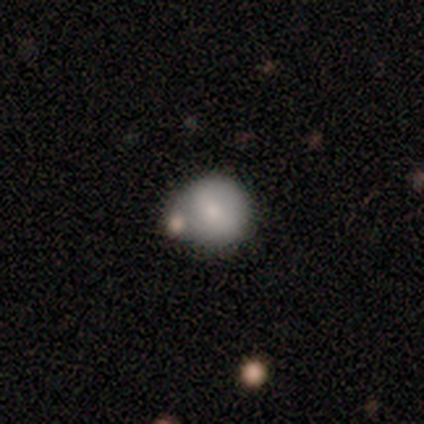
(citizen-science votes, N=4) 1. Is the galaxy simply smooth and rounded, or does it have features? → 50% smooth, 25% featured or disk, 25% star or artifact.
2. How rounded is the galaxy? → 100% round, 0% in between, 0% cigar-shaped.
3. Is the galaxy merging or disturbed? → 67% none, 33% minor disturbance, 0% major disturbance, 0% merger.